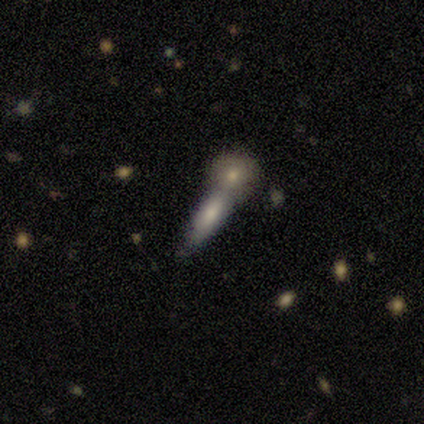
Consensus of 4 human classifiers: This is likely a smooth galaxy (75%). How rounded: likely cigar-shaped (67%). Merging: possibly none (50%, tied with merger).